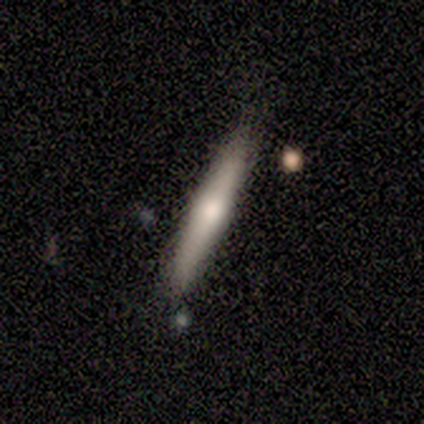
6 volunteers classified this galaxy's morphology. Smooth or featured?
  - smooth: 67% *
  - featured or disk: 33%
  - star or artifact: 0%
How rounded?
  - cigar-shaped: 100% *
  - round: 0%
  - in between: 0%
Merging?
  - none: 83% *
  - minor disturbance: 17%
  - major disturbance: 0%
  - merger: 0%